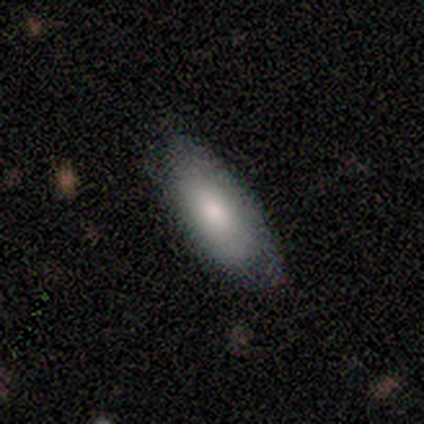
smooth_or_featured: smooth (p=0.60) [alt: star or artifact p=0.40]
how_rounded: in between (p=1.00)
merging: none (p=1.00)